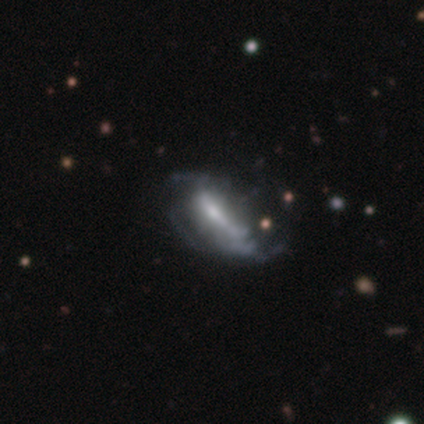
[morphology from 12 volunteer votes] Smooth or featured? 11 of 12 (92%) said featured or disk. Edge-on disk? 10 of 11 (91%) said no. Bar? 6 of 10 (60%) said strong. Spiral arms? 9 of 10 (90%) said yes. Spiral winding? 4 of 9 (44%) said tight. Spiral arm count? 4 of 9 (44%) said can't tell. Bulge size? 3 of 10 (30%, tied with moderate) said large. Merging? 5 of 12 (42%) said none.